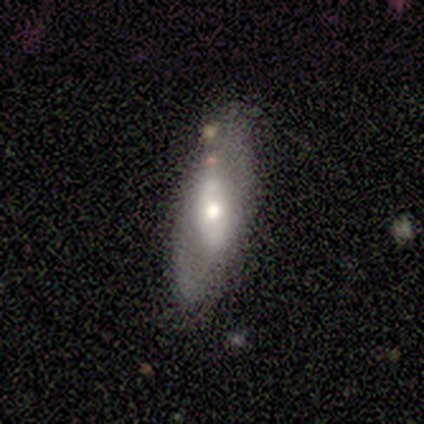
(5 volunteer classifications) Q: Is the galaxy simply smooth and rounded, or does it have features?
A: smooth — 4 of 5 (80%).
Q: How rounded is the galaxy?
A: in between — 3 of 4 (75%).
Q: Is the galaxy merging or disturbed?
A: none — 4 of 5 (80%).